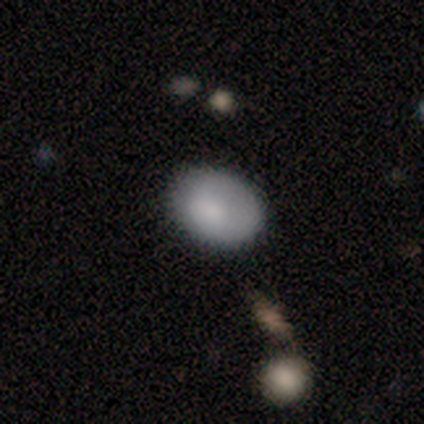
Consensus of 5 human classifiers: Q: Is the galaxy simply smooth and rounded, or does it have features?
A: smooth — 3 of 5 (60%).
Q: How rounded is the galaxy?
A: in between — 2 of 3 (67%).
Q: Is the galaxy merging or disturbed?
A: none — 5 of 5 (100%).